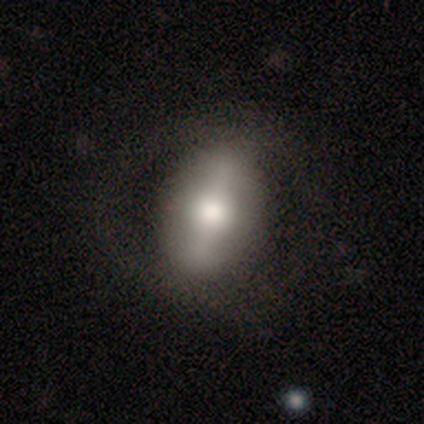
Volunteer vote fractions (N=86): Smooth or featured: smooth — 49% (featured or disk — 45%)
How rounded: in between — 74% (round — 24%)
Merging: none — 78% (minor disturbance — 14%)